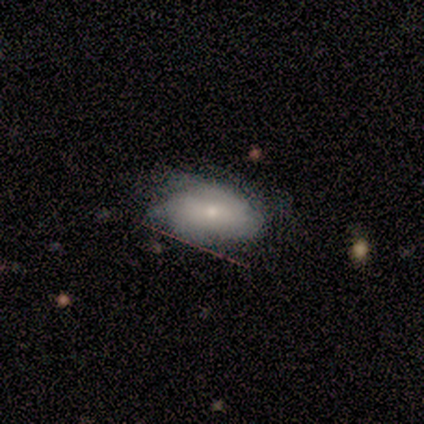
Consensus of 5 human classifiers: featured or disk 80%, smooth 20%, star or artifact 0%. Down the decision tree: edge-on disk — no (100%); bar — no (75%); spiral arms — yes (50%, tied with no); spiral arm count — can't tell (100%); spiral winding — loose (100%); bulge size — small (100%); merging — none (100%).